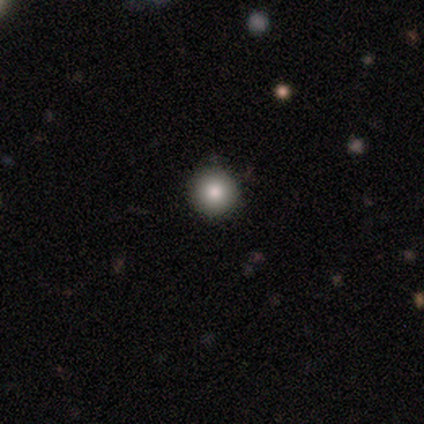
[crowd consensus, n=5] Volunteers were most divided on "smooth or featured": smooth: 60%, star or artifact: 40%, featured or disk: 0%. More confident: how rounded — round (100%); merging — none (100%).